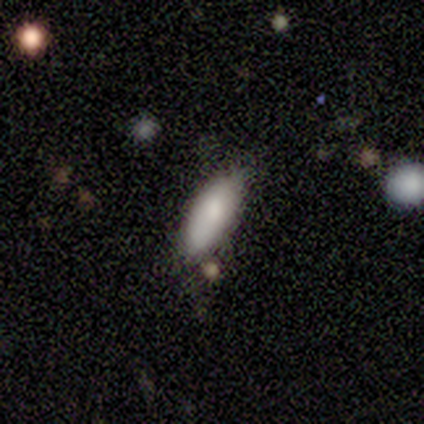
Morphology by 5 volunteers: smooth_or_featured: smooth (p=0.80) [alt: featured or disk p=0.20]
how_rounded: in between (p=0.75) [alt: cigar-shaped p=0.25]
merging: none (p=0.60) [alt: minor disturbance p=0.20]